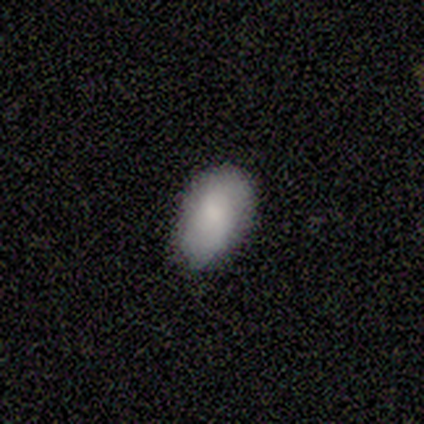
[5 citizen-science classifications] Smooth or featured: smooth — 80% (star or artifact — 20%)
How rounded: in between — 100%
Merging: none — 100%